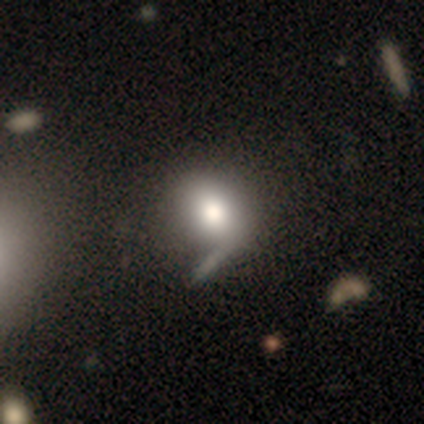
Overall: smooth (80%). How rounded: round (100%). Merging: merger (50%; none 25%).